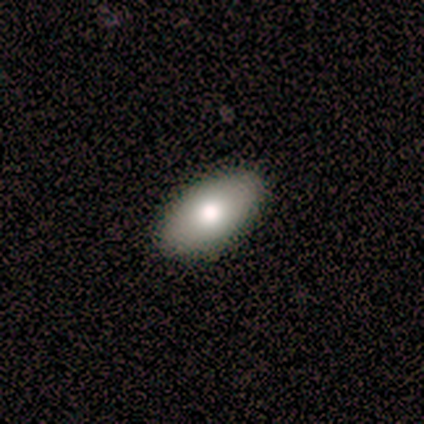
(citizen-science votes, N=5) Smooth or featured?
  - smooth: 100% *
  - featured or disk: 0%
  - star or artifact: 0%
How rounded?
  - in between: 80% *
  - round: 20%
  - cigar-shaped: 0%
Merging?
  - none: 100% *
  - minor disturbance: 0%
  - major disturbance: 0%
  - merger: 0%